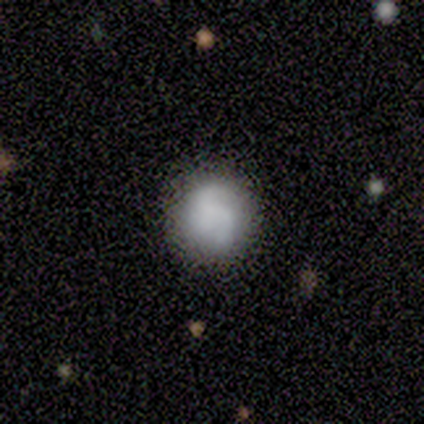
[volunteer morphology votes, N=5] type=smooth (40%, tied with featured or disk); roundness=round (100%); merging=none (50%, tied with minor disturbance).